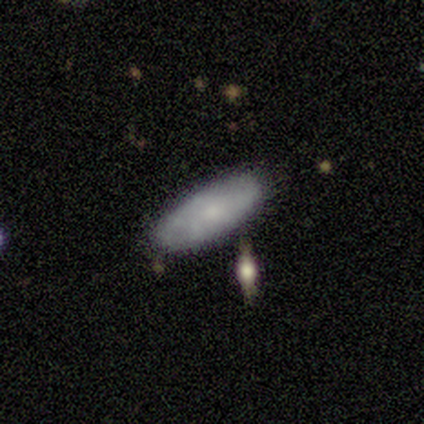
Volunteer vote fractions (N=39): Smooth or featured: smooth — 74% (featured or disk — 26%)
How rounded: in between — 76% (cigar-shaped — 24%)
Merging: none — 79% (minor disturbance — 10%)